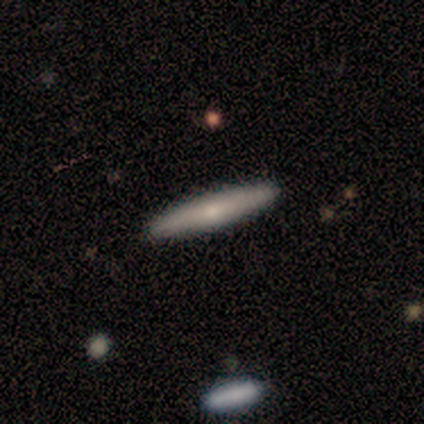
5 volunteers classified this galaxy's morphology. smooth 40% (tied), featured or disk 40% (tied), star or artifact 20%. Down the decision tree: how rounded — in between (50%, tied with cigar-shaped); merging — none (75%).